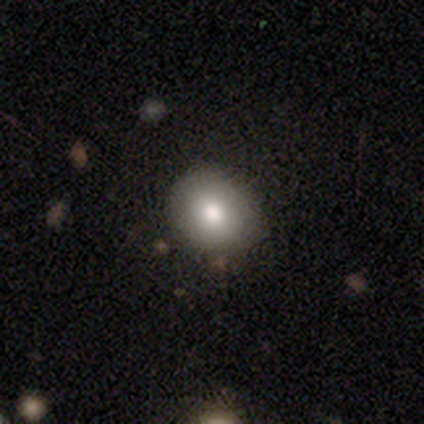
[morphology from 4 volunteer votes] smooth 75%, featured or disk 25%, star or artifact 0%. Down the decision tree: how rounded — round (67%); merging — none (75%).